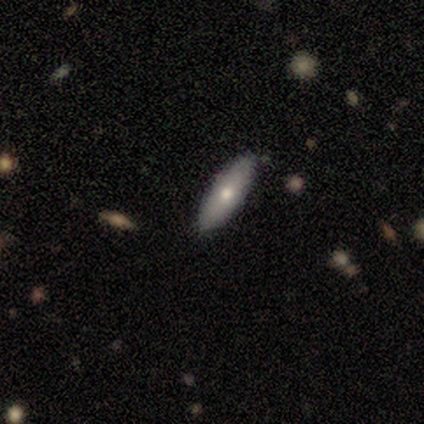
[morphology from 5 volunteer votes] type=smooth (100%); roundness=in between (60%); merging=none (100%).